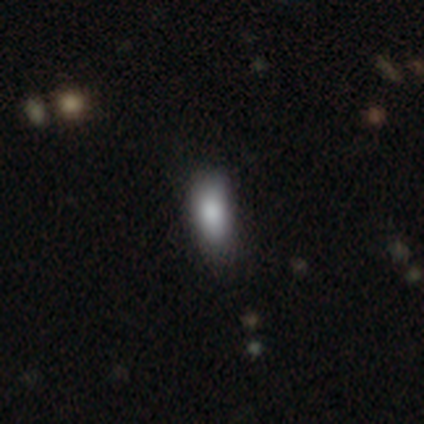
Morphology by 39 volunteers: This appears to be a smooth galaxy with no disk features (79%) that is in between round and cigar-shaped (81%). Merging: none (65%).